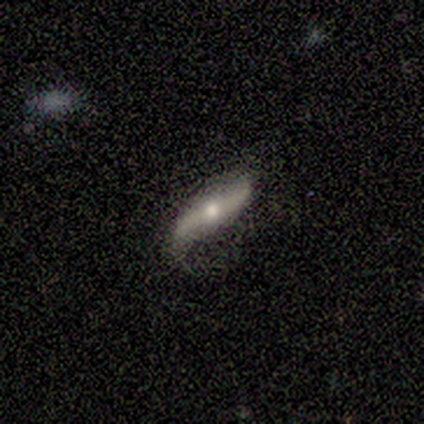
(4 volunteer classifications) Smooth or featured?
  - featured or disk: 75% *
  - smooth: 25%
  - star or artifact: 0%
Edge-on disk?
  - no: 67% *
  - yes: 33%
Bar?
  - strong: 100% *
  - weak: 0%
  - no: 0%
Spiral arms?
  - yes: 100% *
  - no: 0%
Spiral winding?
  - loose: 100% *
  - tight: 0%
  - medium: 0%
Spiral arm count?
  - 2: 100% *
  - 1: 0%
  - 3: 0%
  - 4: 0%
  - more than 4: 0%
  - can't tell: 0%
Bulge size?
  - large: 50% * (tied)
  - small: 50% * (tied)
  - dominant: 0%
  - moderate: 0%
  - none: 0%
Merging?
  - none: 50% *
  - minor disturbance: 25%
  - major disturbance: 25%
  - merger: 0%